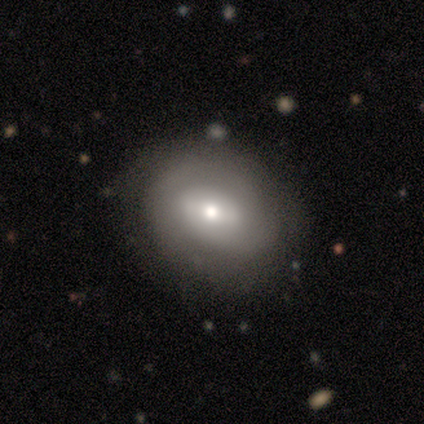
This appears to be a featured or disk galaxy (75%) with a weak bar (67%), no spiral arms (67%) and a small central bulge (67%). Merging: none (100%).